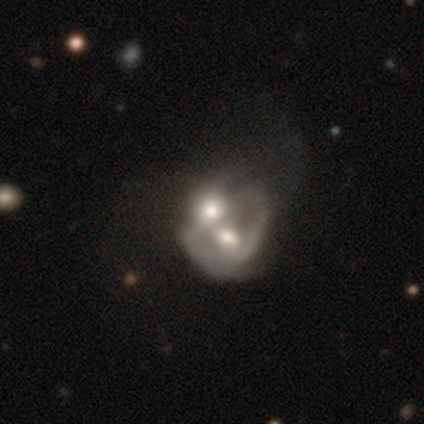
This is clearly a smooth galaxy (100%). How rounded: clearly in between (100%). Merging: clearly merger (100%).